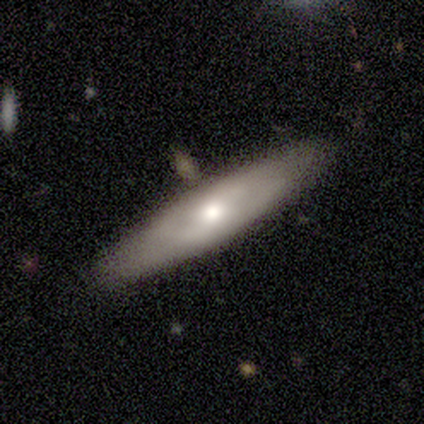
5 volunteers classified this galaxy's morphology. smooth_or_featured: featured or disk (p=0.60) [alt: smooth p=0.40]
disk_edge_on: no (p=1.00)
bar: no (p=1.00)
has_spiral_arms: no (p=0.67) [alt: yes p=0.33]
bulge_size: small (p=0.67) [alt: moderate p=0.33]
merging: none (p=1.00)